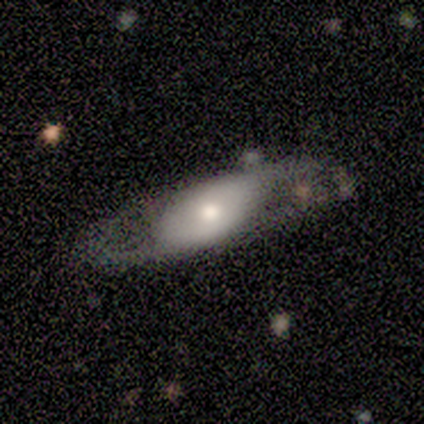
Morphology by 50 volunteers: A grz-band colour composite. It shows a featured or disk galaxy (74%) with no bar (78%), 2 (90%) loose (67%) spiral arms (66%) and a moderate central bulge (56%). Merging: none (58%).